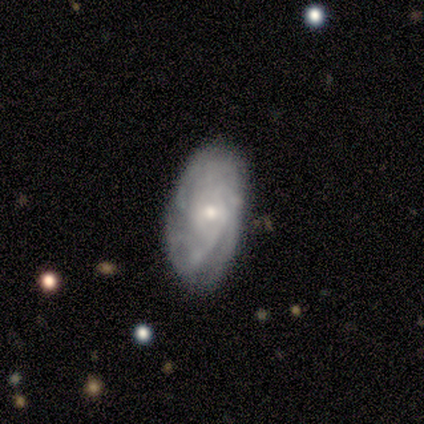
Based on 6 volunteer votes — A featured or disk galaxy (100%) with no bar (67%), tight (60%) spiral arms (83%) and a small central bulge (67%).

Vote fractions:
- Smooth or featured? featured or disk: 100% / smooth: 0% / star or artifact: 0%
- Edge-on disk? no: 100% / yes: 0%
- Bar? no: 67% / weak: 33% / strong: 0%
- Spiral arms? yes: 83% / no: 17%
- Spiral winding? tight: 60% / medium: 40% / loose: 0%
- Spiral arm count? can't tell: 80% / 4: 20% / 1: 0% / 2: 0% / 3: 0% / more than 4: 0%
- Bulge size? small: 67% / moderate: 33% / dominant: 0% / large: 0% / none: 0%
- Merging? none: 67% / minor disturbance: 33% / major disturbance: 0% / merger: 0%